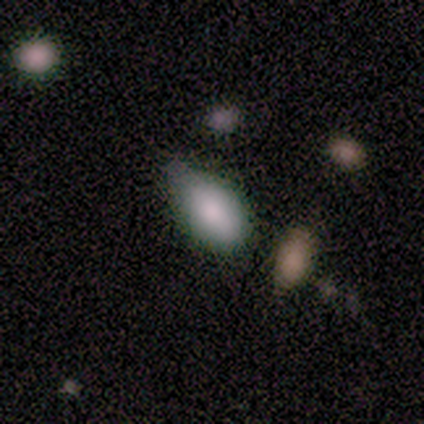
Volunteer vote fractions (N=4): Volunteers were most divided on "merging" (2-way tie): none: 50%, minor disturbance: 50%, major disturbance: 0%, merger: 0%. More confident: smooth or featured — smooth (100%); how rounded — in between (100%).